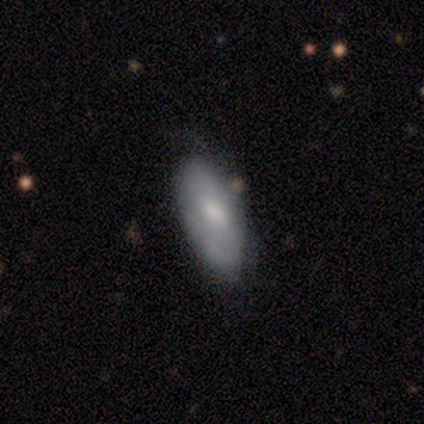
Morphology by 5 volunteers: This is likely a featured or disk galaxy (60%). It is clearly not viewed edge-on (100%). Bar: marginally strong (33%, tied with weak and no). Spiral arm pattern: clearly yes (100%). Spiral arm count: likely can't tell (67%). Spiral winding: likely medium (67%). Central bulge: likely small (67%). Merging: likely minor disturbance (60%).